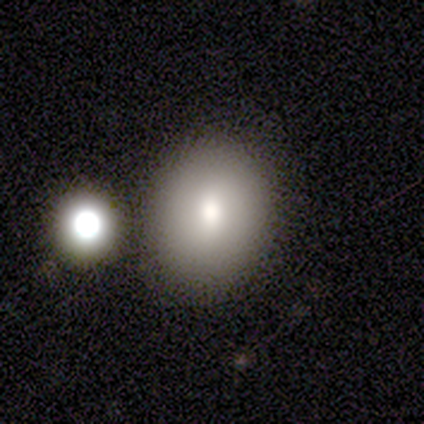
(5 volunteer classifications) This appears to be a smooth galaxy with no disk features (80%) that is in between round and cigar-shaped (75%). Merging: none (50%, tied with merger).